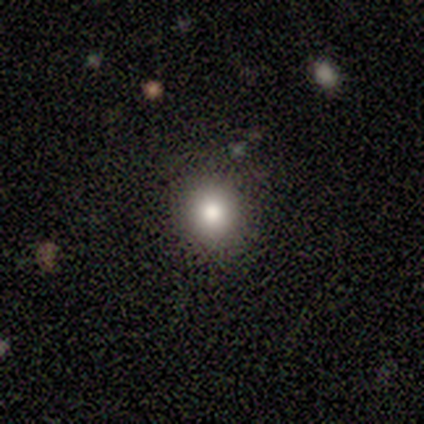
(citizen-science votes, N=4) A smooth galaxy with no disk features (75%) that is round (100%).

Vote fractions:
- Smooth or featured? smooth: 75% / featured or disk: 25% / star or artifact: 0%
- How rounded? round: 100% / in between: 0% / cigar-shaped: 0%
- Merging? none: 75% / minor disturbance: 25% / major disturbance: 0% / merger: 0%